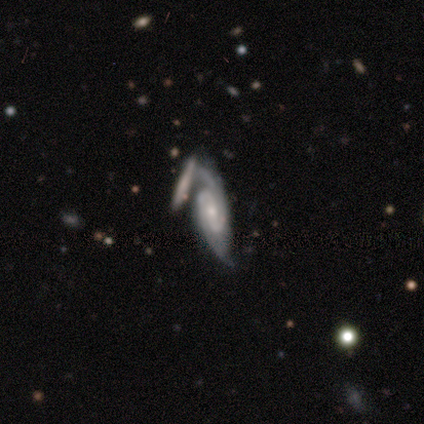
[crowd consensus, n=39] Smooth or featured? featured or disk (97%)
Edge-on disk? no (97%)
Bar? weak (57%)
Spiral arms? yes (97%)
Spiral winding? tight (56%)
Spiral arm count? 2 (86%)
Bulge size? small (54%)
Merging? merger (39%)